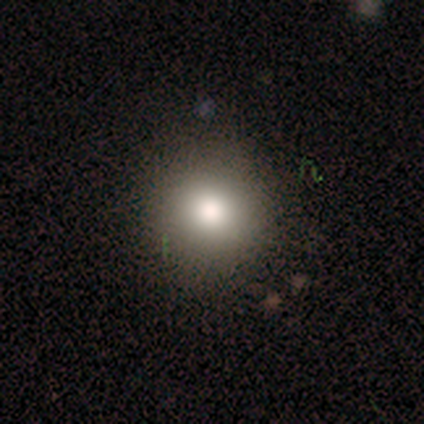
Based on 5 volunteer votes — Smooth or featured? 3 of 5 (60%) said smooth. How rounded? 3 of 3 (100%) said round. Merging? 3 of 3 (100%) said none.